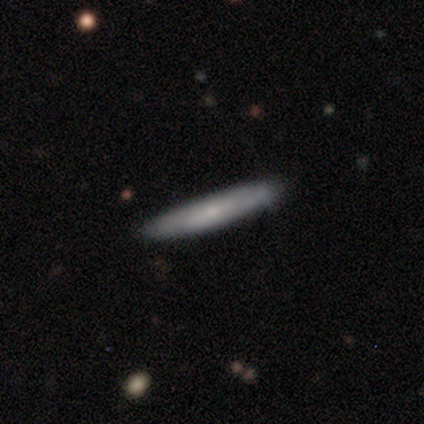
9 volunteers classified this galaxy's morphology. Smooth or featured: smooth — 78% (featured or disk — 22%)
How rounded: cigar-shaped — 100%
Merging: none — 89% (minor disturbance — 11%)